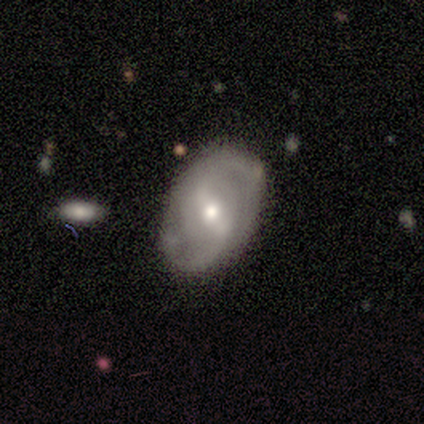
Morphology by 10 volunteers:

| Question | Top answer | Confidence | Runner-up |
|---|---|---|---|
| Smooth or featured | featured or disk | 100% | — |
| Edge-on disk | no | 100% | — |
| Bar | weak | 50% | strong (40%) |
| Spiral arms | yes | 100% | — |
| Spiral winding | medium | 50% | loose (40%) |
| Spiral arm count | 2 | 100% | — |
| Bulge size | small | 50% | moderate (40%) |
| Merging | none | 80% | minor disturbance (10%) |